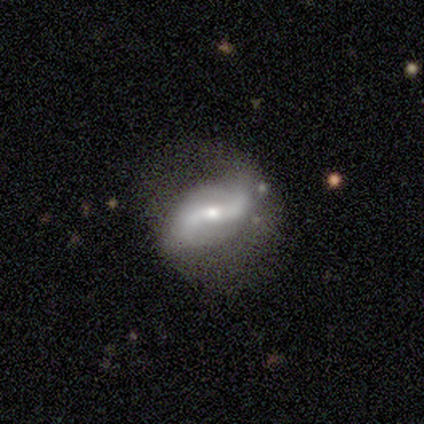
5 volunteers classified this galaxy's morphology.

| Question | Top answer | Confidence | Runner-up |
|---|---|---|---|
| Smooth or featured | featured or disk | 60% | smooth (40%) |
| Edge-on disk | no | 100% | — |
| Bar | no | 67% | strong (33%) |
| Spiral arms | yes | 100% | — |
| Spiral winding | loose | 67% | medium (33%) |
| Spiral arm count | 2 | 100% | — |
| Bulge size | small | 67% | moderate (33%) |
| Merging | minor disturbance | 80% | none (20%) |